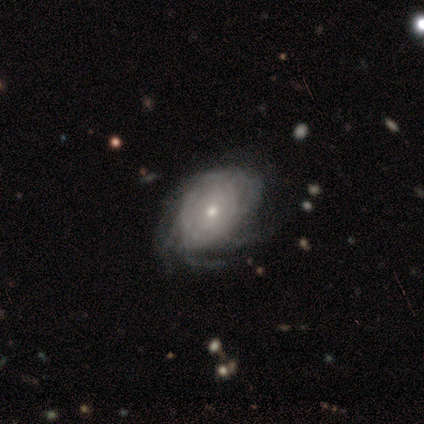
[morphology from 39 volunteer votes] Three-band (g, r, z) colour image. It shows a featured or disk galaxy (90%) with no bar (77%), tight (73%) spiral arms (100%) and a small central bulge (63%). Merging: none (68%).